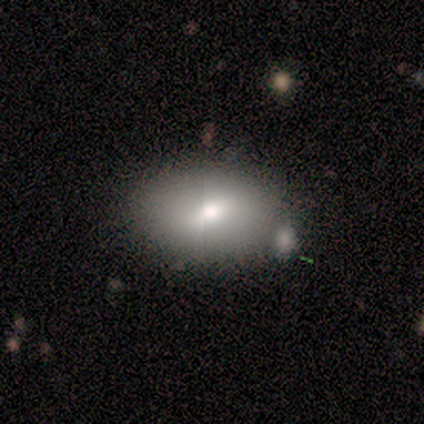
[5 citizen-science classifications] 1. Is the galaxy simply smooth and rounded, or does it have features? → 60% smooth, 20% featured or disk, 20% star or artifact.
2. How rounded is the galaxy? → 100% in between, 0% round, 0% cigar-shaped.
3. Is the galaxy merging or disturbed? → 50% merger, 25% none, 25% minor disturbance, 0% major disturbance.